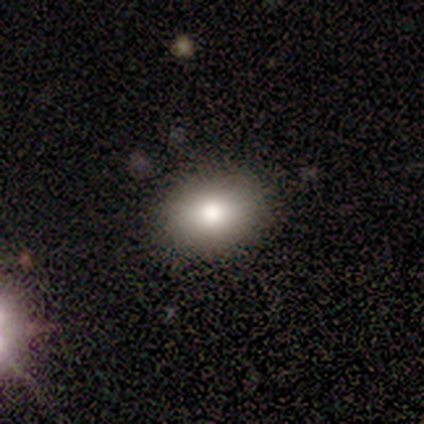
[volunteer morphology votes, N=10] A smooth galaxy with no disk features (100%) that is in between round and cigar-shaped (80%). Merging: none (100%).